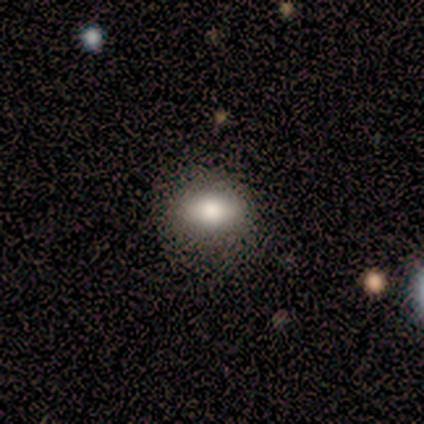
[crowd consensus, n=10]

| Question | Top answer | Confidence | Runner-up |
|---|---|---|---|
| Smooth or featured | smooth | 50% | featured or disk (40%) |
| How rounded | in between | 80% | cigar-shaped (20%) |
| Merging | none | 78% | minor disturbance (22%) |